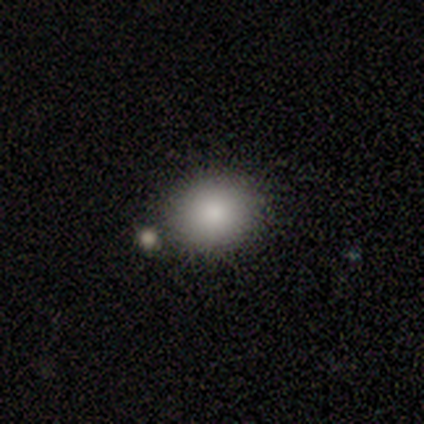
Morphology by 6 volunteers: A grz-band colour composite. It shows a smooth galaxy with no disk features (100%) that is round (50%, tied with in between). Merging: none (67%).